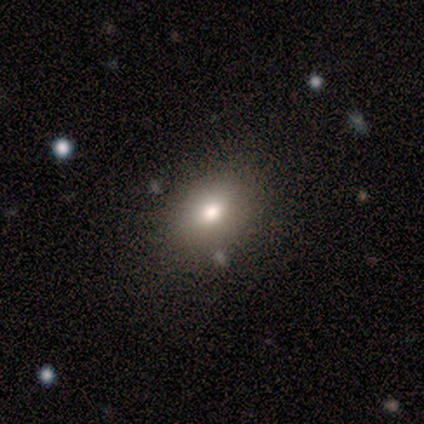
Smooth or featured?
  - smooth: 60% *
  - featured or disk: 20%
  - star or artifact: 20%
How rounded?
  - in between: 100% *
  - round: 0%
  - cigar-shaped: 0%
Merging?
  - none: 75% *
  - minor disturbance: 25%
  - major disturbance: 0%
  - merger: 0%